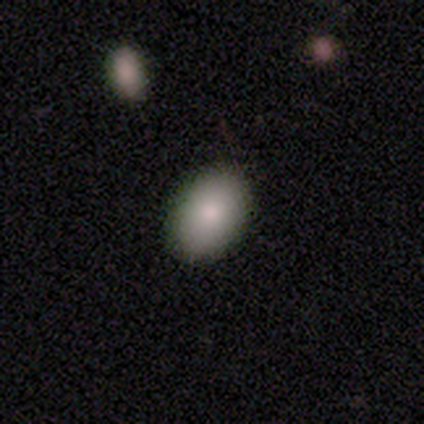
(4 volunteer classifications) A smooth galaxy with no disk features (100%) that is in between round and cigar-shaped (100%). Merging: none (100%).